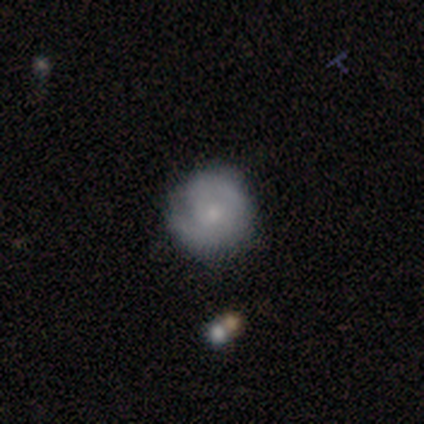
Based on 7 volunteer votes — Q: Smooth or featured?
A: featured or disk (71%); runner-up: smooth (14%)
Q: Edge-on disk?
A: no (100%)
Q: Bar?
A: no (100%)
Q: Spiral arms?
A: yes (80%); runner-up: no (20%)
Q: Spiral winding?
A: tight (50%); runner-up: medium (25%)
Q: Spiral arm count?
A: 1 (25%); tied with: 2 (25%); 4 (25%); can't tell (25%)
Q: Bulge size?
A: small (60%); runner-up: moderate (20%)
Q: Merging?
A: minor disturbance (67%); runner-up: none (17%)